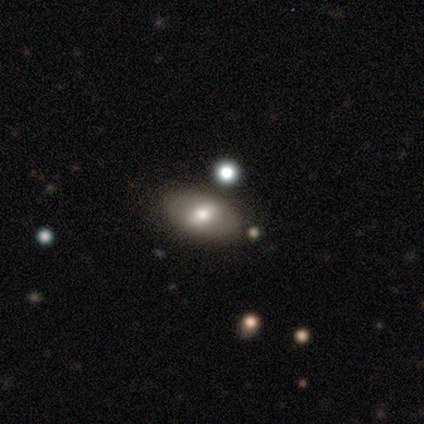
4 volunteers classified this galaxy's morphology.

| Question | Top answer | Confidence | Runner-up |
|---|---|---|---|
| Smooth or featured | smooth | 50% | tied: featured or disk (50%) |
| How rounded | in between | 100% | — |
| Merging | none | 75% | minor disturbance (25%) |